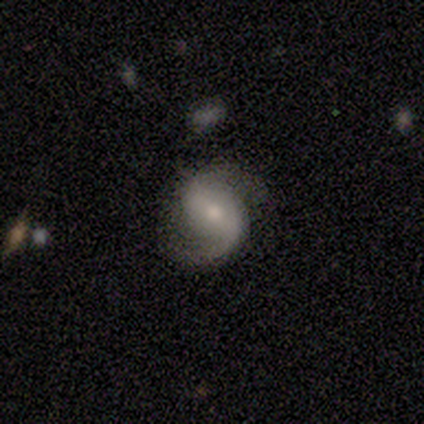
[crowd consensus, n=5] Q: Smooth or featured?
A: featured or disk (80%); runner-up: smooth (20%)
Q: Edge-on disk?
A: no (100%)
Q: Bar?
A: weak (100%)
Q: Spiral arms?
A: yes (100%)
Q: Spiral winding?
A: medium (75%); runner-up: loose (25%)
Q: Spiral arm count?
A: 2 (100%)
Q: Bulge size?
A: moderate (50%); tied with: small (50%)
Q: Merging?
A: none (80%); runner-up: minor disturbance (20%)